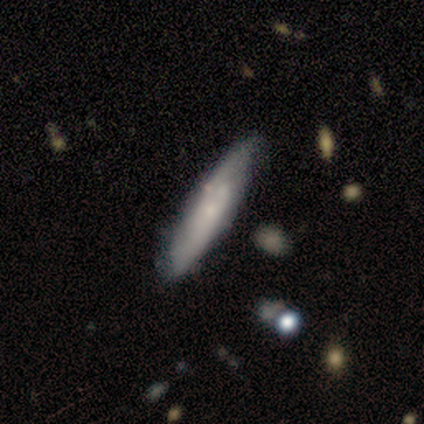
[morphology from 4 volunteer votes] This appears to be a smooth galaxy with no disk features (75%) that is cigar-shaped (100%). Merging: none (100%).